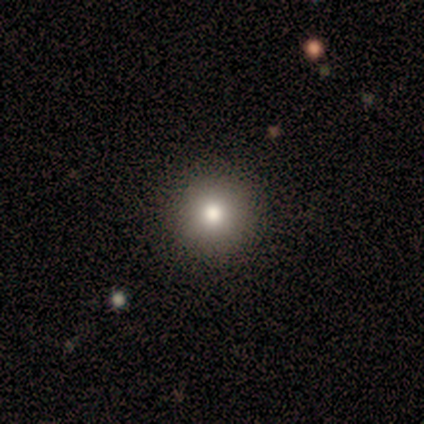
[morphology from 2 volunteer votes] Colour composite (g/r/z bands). It shows a smooth galaxy with no disk features (50%, tied with star or artifact) that is round (100%). Merging: none (100%).